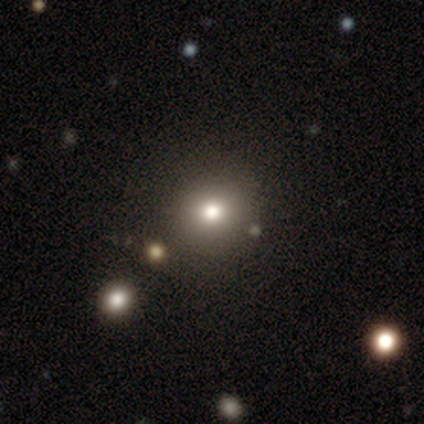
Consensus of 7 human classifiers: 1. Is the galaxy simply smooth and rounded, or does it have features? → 71% smooth, 29% star or artifact, 0% featured or disk.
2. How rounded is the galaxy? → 100% round, 0% in between, 0% cigar-shaped.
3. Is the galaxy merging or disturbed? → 80% none, 20% minor disturbance, 0% major disturbance, 0% merger.